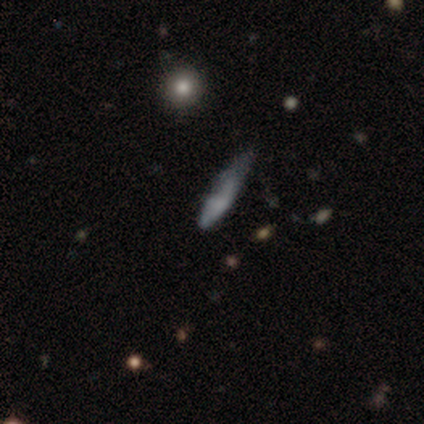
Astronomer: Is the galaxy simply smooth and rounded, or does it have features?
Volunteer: featured or disk — 60%.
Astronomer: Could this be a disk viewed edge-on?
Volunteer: no — 67%.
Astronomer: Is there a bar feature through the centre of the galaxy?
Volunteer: strong — 50%, tied with no at 50%.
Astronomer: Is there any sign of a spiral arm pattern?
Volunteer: no — 100%.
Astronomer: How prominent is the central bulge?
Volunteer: large — 50%, tied with none at 50%.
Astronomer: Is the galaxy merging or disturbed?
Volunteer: none — 50%.